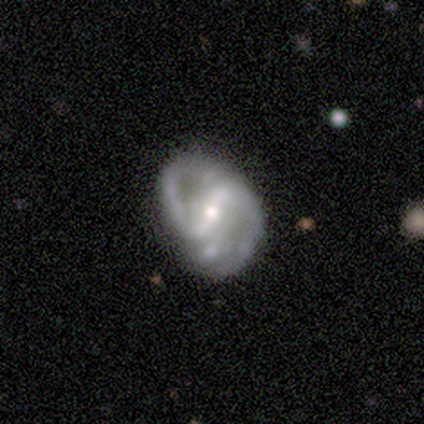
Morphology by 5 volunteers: featured or disk 80%, star or artifact 20%, smooth 0%. Down the decision tree: edge-on disk — no (100%); bar — strong (75%); spiral arms — yes (100%); spiral arm count — 2 (75%); spiral winding — medium (50%, tied with loose); bulge size — moderate (50%, tied with small); merging — none (50%, tied with minor disturbance).